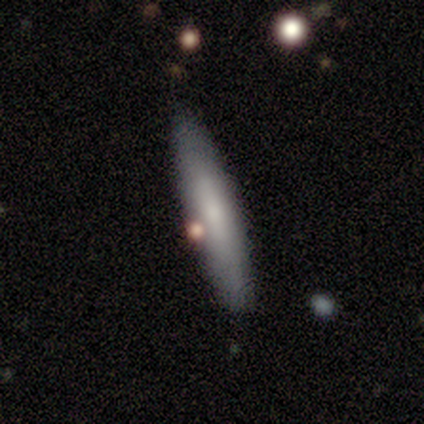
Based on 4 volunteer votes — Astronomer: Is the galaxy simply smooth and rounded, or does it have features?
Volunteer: featured or disk — 75%.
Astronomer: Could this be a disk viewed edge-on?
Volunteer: no — 67%.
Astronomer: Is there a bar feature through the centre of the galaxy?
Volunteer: weak — 50%, tied with no at 50%.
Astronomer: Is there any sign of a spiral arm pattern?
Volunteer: no — 100%.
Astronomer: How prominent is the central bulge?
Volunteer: moderate — 50%, tied with small at 50%.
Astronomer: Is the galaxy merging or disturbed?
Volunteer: none — 100%.